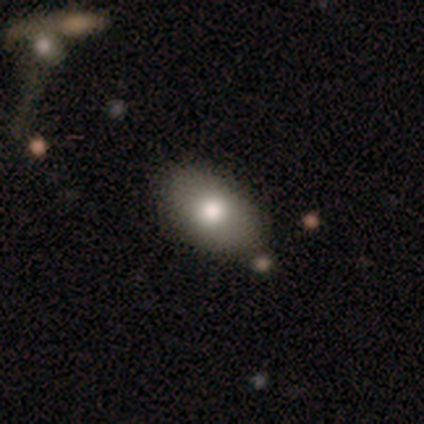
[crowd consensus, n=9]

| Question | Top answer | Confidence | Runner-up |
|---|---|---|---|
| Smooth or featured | smooth | 78% | featured or disk (11%) |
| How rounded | in between | 86% | round (14%) |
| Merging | none | 88% | minor disturbance (12%) |